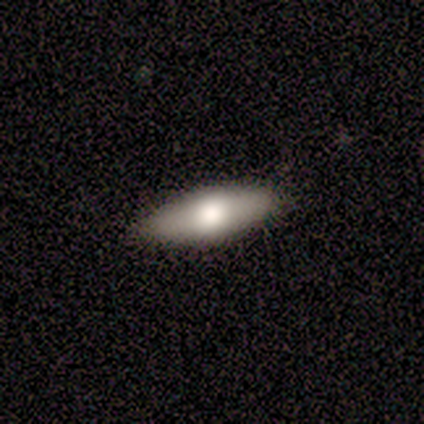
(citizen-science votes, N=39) smooth_or_featured: smooth (p=0.62) [alt: featured or disk p=0.33]
how_rounded: in between (p=0.83) [alt: cigar-shaped p=0.17]
merging: none (p=0.84) [alt: minor disturbance p=0.14]